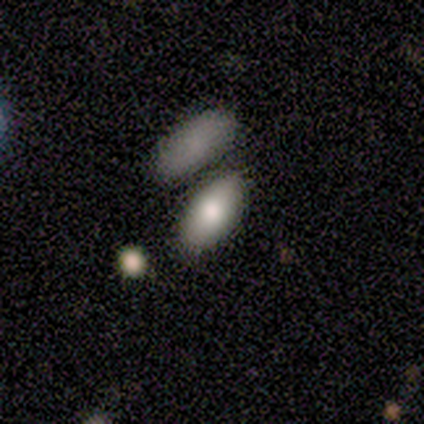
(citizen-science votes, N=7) Smooth or featured?
  - smooth: 86% *
  - featured or disk: 14%
  - star or artifact: 0%
How rounded?
  - in between: 83% *
  - round: 17%
  - cigar-shaped: 0%
Merging?
  - none: 71% *
  - minor disturbance: 14%
  - merger: 14%
  - major disturbance: 0%